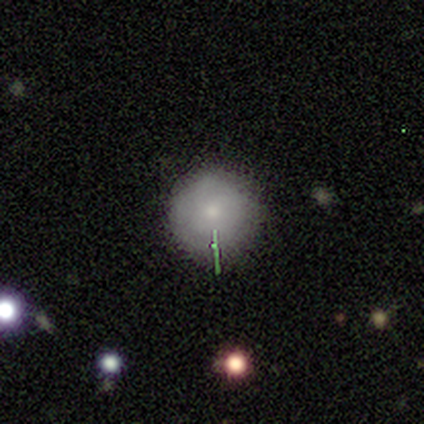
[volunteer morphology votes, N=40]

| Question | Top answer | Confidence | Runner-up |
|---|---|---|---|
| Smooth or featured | smooth | 75% | featured or disk (15%) |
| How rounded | round | 97% | in between (3%) |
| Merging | none | 81% | minor disturbance (8%) |